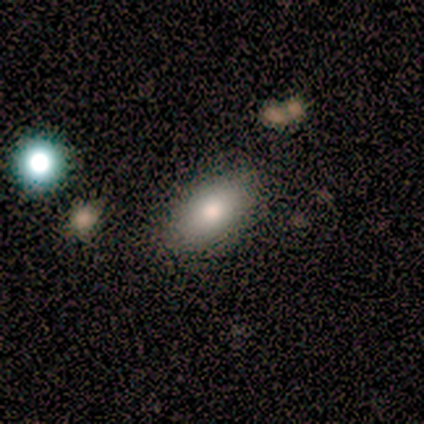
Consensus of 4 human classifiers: Smooth or featured? 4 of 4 (100%) said smooth. How rounded? 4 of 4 (100%) said in between. Merging? 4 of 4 (100%) said none.